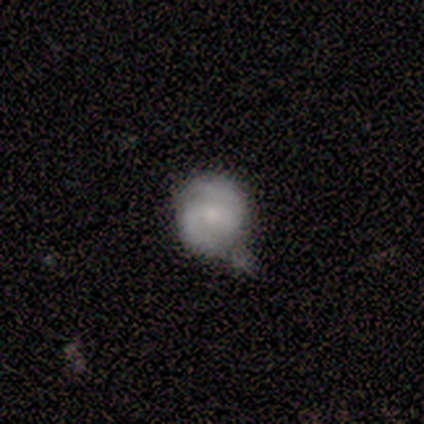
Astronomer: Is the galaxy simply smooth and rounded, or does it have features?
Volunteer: featured or disk — 68%.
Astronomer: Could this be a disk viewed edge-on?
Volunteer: no — 100%.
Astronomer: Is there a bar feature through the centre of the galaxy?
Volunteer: no — 52% (runner-up: weak, 41%).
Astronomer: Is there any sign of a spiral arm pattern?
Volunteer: yes — 96%.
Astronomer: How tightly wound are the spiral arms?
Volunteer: medium — 54% (runner-up: tight, 31%).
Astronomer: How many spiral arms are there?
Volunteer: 2 — 92%.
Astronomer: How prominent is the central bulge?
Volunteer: moderate — 44%, tied with small at 44%.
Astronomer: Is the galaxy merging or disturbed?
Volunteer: none — 42%, tied with minor disturbance at 42%.